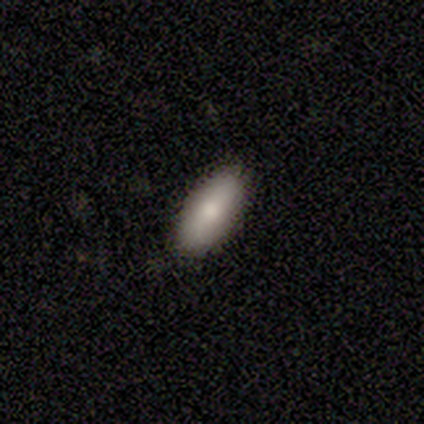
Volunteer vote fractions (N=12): smooth 83%, featured or disk 17%, star or artifact 0%. Down the decision tree: how rounded — in between (90%); merging — none (100%).